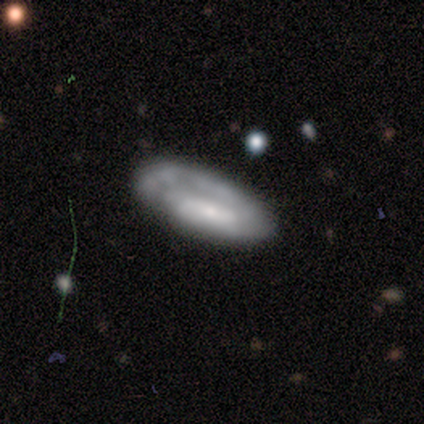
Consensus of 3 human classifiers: This is likely a featured or disk galaxy (67%). It is clearly not viewed edge-on (100%). Bar: clearly weak (100%). Spiral arm pattern: clearly yes (100%). Spiral arm count: possibly 1 (50%, tied with 2). Spiral winding: possibly tight (50%, tied with loose). Central bulge: clearly small (100%). Merging: likely major disturbance (67%).